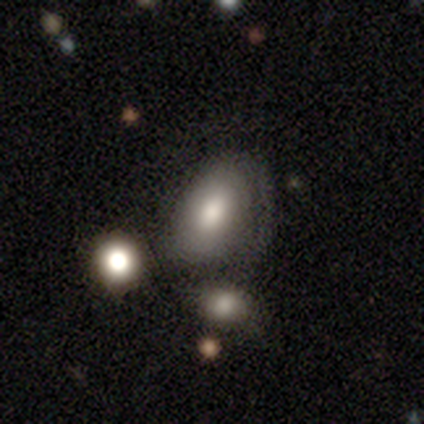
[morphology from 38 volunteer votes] smooth-or-featured: smooth: 58% | featured or disk: 34% | star or artifact: 8%
  how-rounded: in between: 95% | round: 5% | cigar-shaped: 0%
  merging: none: 37% | minor disturbance: 31% | major disturbance: 17% | merger: 14%